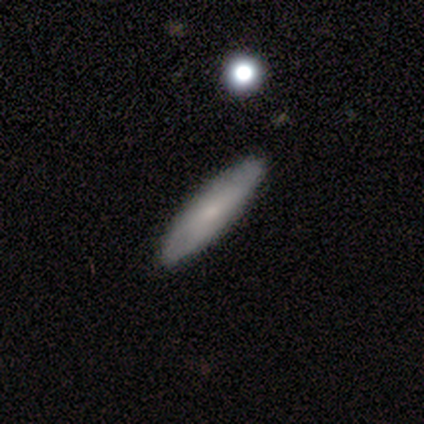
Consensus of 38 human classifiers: smooth_or_featured: smooth (p=0.74) [alt: featured or disk p=0.24]
how_rounded: cigar-shaped (p=0.79) [alt: in between p=0.21]
merging: none (p=0.62) [alt: minor disturbance p=0.03]